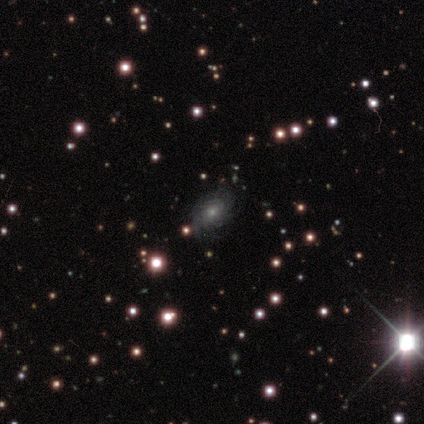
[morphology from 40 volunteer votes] Smooth or featured? 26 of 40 (65%) said featured or disk. Edge-on disk? 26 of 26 (100%) said no. Bar? 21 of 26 (81%) said no. Spiral arms? 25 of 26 (96%) said yes. Spiral winding? 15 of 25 (60%) said tight. Spiral arm count? 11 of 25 (44%, tied with can't tell) said more than 4. Bulge size? 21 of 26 (81%) said small. Merging? 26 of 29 (90%) said none.